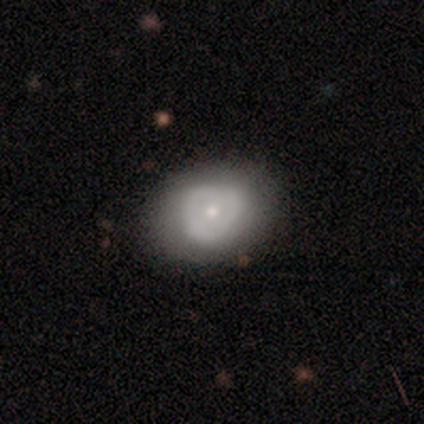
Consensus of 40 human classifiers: Q: Smooth or featured?
A: featured or disk (50%); runner-up: smooth (40%)
Q: Edge-on disk?
A: no (100%)
Q: Bar?
A: no (80%); runner-up: weak (15%)
Q: Spiral arms?
A: no (60%); runner-up: yes (40%)
Q: Bulge size?
A: small (50%); runner-up: moderate (45%)
Q: Merging?
A: none (83%); runner-up: minor disturbance (14%)